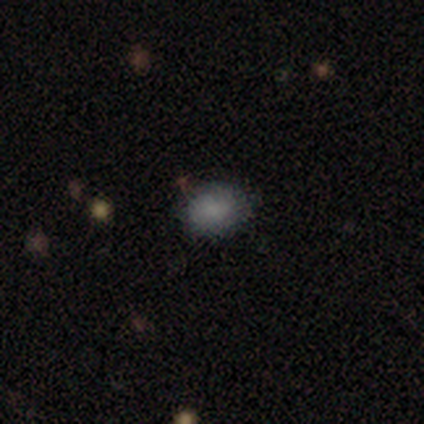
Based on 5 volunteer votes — smooth_or_featured: smooth (p=0.80) [alt: star or artifact p=0.20]
how_rounded: round (p=0.75) [alt: in between p=0.25]
merging: none (p=0.50) [alt: minor disturbance p=0.25]